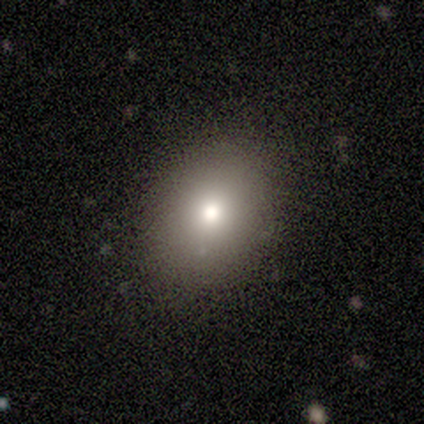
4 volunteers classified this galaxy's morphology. smooth-or-featured: smooth: 75% | featured or disk: 25% | star or artifact: 0%
  how-rounded: in between: 100% | round: 0% | cigar-shaped: 0%
  merging: none: 100% | minor disturbance: 0% | major disturbance: 0% | merger: 0%